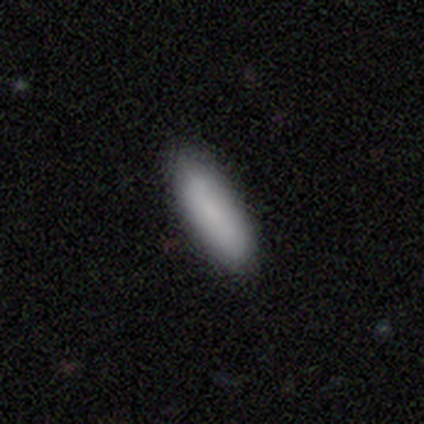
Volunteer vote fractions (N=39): Volunteers were most divided on "how rounded": in between: 55%, cigar-shaped: 45%, round: 0%. More confident: merging — none (86%); smooth or featured — smooth (79%).